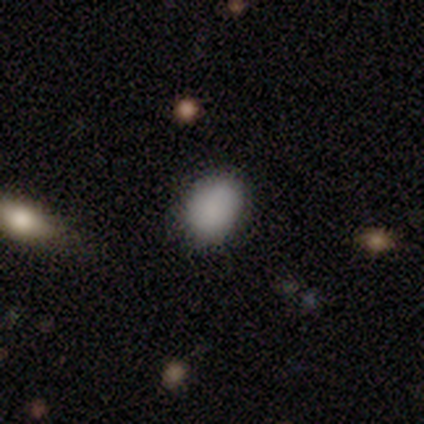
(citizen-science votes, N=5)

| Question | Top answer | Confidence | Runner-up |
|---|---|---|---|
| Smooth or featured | smooth | 80% | star or artifact (20%) |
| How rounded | in between | 75% | round (25%) |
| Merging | none | 50% | tied: minor disturbance (50%) |